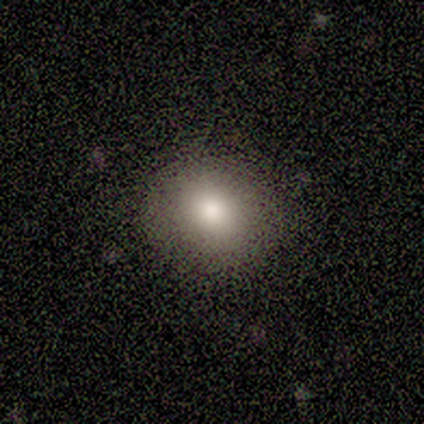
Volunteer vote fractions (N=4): smooth 100%, featured or disk 0%, star or artifact 0%. Down the decision tree: how rounded — round (75%); merging — none (100%).